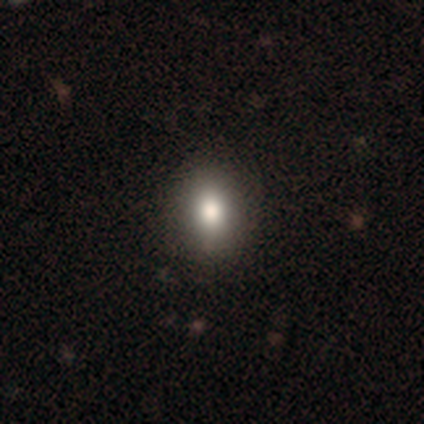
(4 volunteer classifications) Smooth or featured? 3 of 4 (75%) said smooth. How rounded? 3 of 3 (100%) said in between. Merging? 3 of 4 (75%) said none.